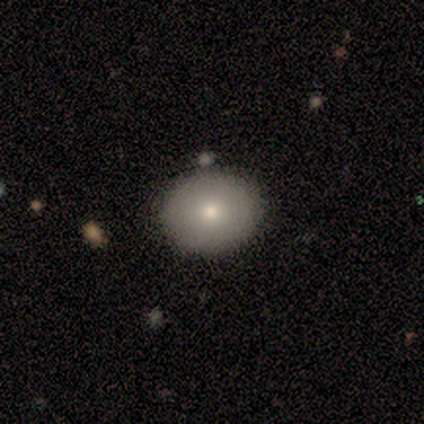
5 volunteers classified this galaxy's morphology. Q: Smooth or featured?
A: smooth (100%)
Q: How rounded?
A: round (80%); runner-up: in between (20%)
Q: Merging?
A: none (100%)